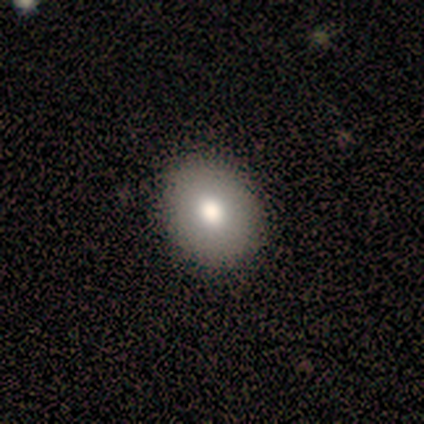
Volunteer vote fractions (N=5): Morphology: type=smooth (100%); roundness=round (100%); merging=none (100%).